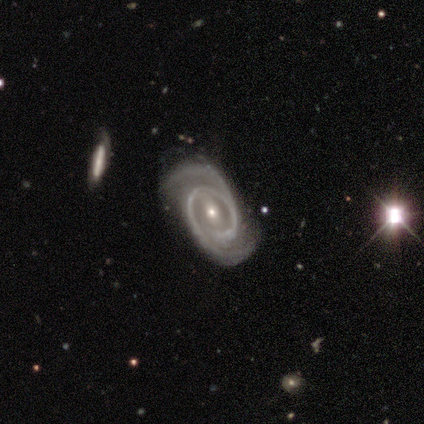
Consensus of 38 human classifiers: featured or disk 92%, smooth 8%, star or artifact 0%. Down the decision tree: edge-on disk — no (89%); bar — weak (42%); spiral arms — yes (100%); spiral arm count — 2 (97%); spiral winding — medium (48%); bulge size — small (65%); merging — none (76%).